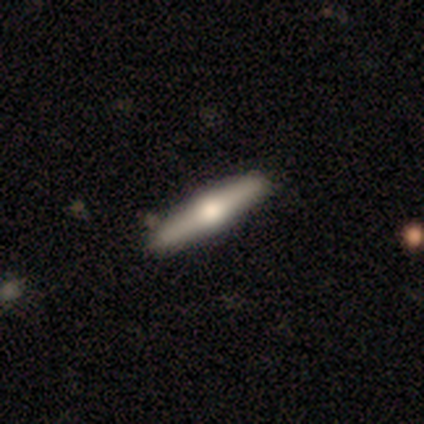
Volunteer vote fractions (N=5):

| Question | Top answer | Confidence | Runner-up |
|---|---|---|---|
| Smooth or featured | featured or disk | 60% | smooth (40%) |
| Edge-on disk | yes | 100% | — |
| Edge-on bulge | rounded | 100% | — |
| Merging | none | 80% | minor disturbance (20%) |